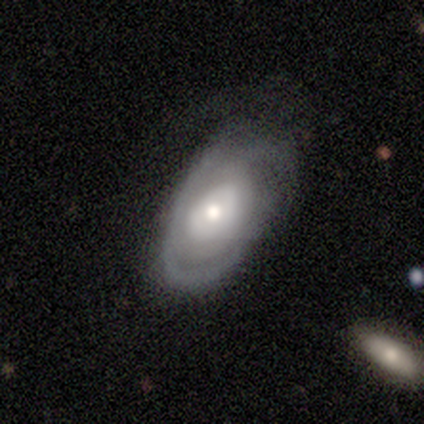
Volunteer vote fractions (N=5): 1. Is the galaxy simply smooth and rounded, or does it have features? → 80% featured or disk, 20% smooth, 0% star or artifact.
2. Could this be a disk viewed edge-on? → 100% no, 0% yes.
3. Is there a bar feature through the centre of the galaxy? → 100% no, 0% strong, 0% weak.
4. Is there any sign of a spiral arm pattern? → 50% yes (tied), 50% no (tied).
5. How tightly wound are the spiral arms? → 100% tight, 0% medium, 0% loose.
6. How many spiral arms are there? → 50% 2 (tied), 50% can't tell (tied), 0% 1, 0% 3, 0% 4, 0% more than 4.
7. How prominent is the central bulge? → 50% large, 25% dominant, 25% moderate, 0% small, 0% none.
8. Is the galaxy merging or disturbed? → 80% none, 20% major disturbance, 0% minor disturbance, 0% merger.